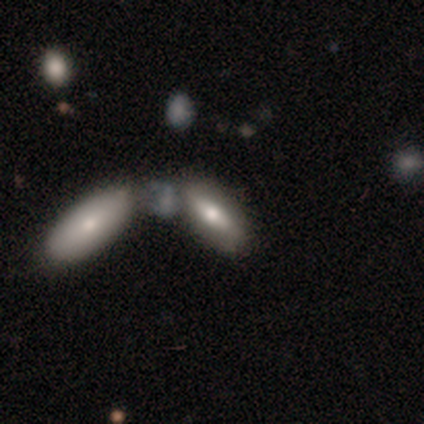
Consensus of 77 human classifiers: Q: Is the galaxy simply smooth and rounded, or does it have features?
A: smooth — 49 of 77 (64%).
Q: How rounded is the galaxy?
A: in between — 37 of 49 (76%).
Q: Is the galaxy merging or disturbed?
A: merger — 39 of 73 (53%).